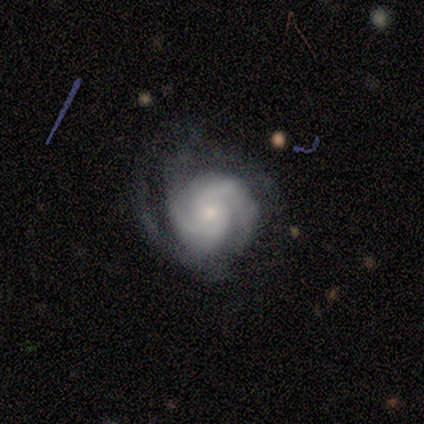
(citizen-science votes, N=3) smooth-or-featured: featured or disk: 100% | smooth: 0% | star or artifact: 0%
  disk-edge-on: no: 100% | yes: 0%
    bar: weak: 67% | no: 33% | strong: 0%
    has-spiral-arms: yes: 100% | no: 0%
      spiral-winding: tight: 67% | medium: 33% | loose: 0%
      spiral-arm-count: 2: 33% (tied) | 3: 33% (tied) | can't tell: 33% (tied) | 1: 0% | 4: 0% | more than 4: 0%
    bulge-size: small: 100% | dominant: 0% | large: 0% | moderate: 0% | none: 0%
  merging: none: 67% | minor disturbance: 33% | major disturbance: 0% | merger: 0%